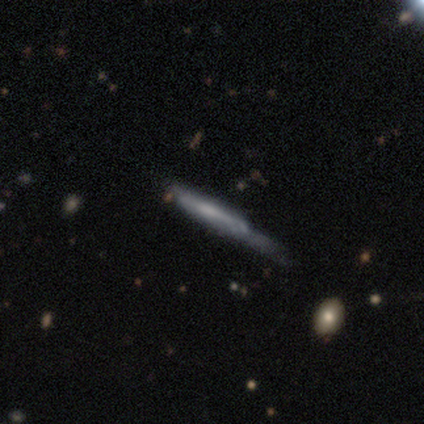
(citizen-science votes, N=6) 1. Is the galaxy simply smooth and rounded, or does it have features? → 83% featured or disk, 17% smooth, 0% star or artifact.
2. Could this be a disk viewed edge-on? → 80% yes, 20% no.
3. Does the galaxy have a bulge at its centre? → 100% none, 0% boxy, 0% rounded.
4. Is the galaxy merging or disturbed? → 67% minor disturbance, 17% none, 17% major disturbance, 0% merger.